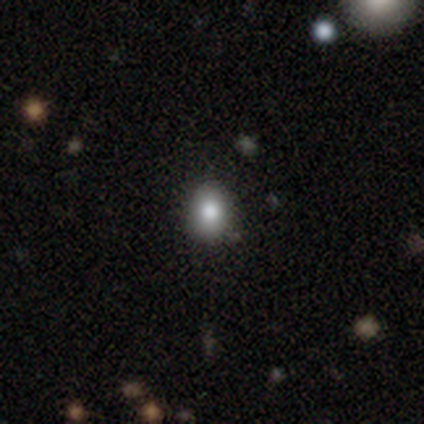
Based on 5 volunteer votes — Smooth or featured: smooth — 80% (star or artifact — 20%)
How rounded: round — 75% (in between — 25%)
Merging: none — 100%